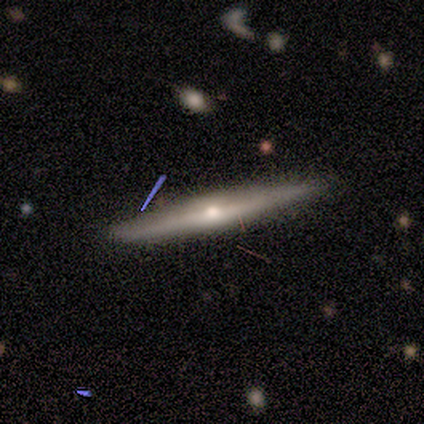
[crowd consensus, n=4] featured or disk 100%, smooth 0%, star or artifact 0%. Down the decision tree: edge-on disk — yes (100%); edge-on bulge — rounded (75%); merging — none (75%).